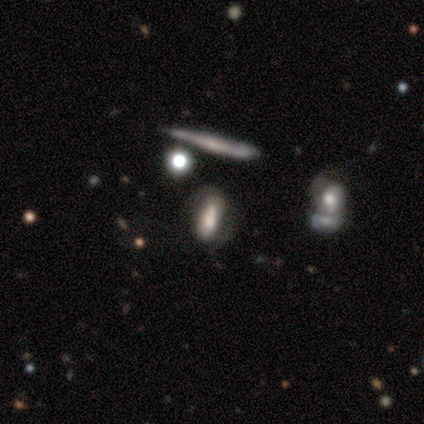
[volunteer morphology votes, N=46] smooth_or_featured: featured or disk (p=0.52) [alt: smooth p=0.33]
disk_edge_on: no (p=0.71) [alt: yes p=0.29]
bar: strong (p=0.47) [alt: no p=0.29]
has_spiral_arms: yes (p=0.82) [alt: no p=0.18]
spiral_winding: medium (p=0.57) [alt: tight p=0.29]
spiral_arm_count: 2 (p=0.86) [alt: 1 p=0.07]
bulge_size: moderate (p=0.41) [alt: dominant p=0.18]
merging: none (p=0.46) [alt: minor disturbance p=0.23]